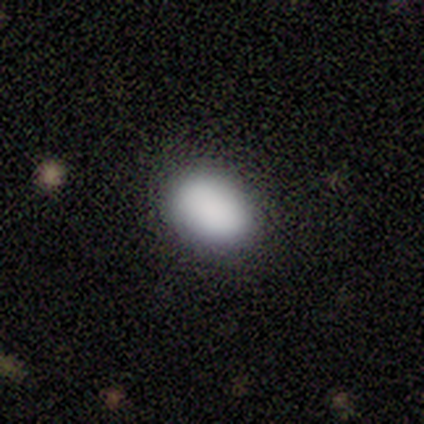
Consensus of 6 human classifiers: This appears to be a smooth galaxy with no disk features (83%) that is in between round and cigar-shaped (80%). Merging: none (80%).